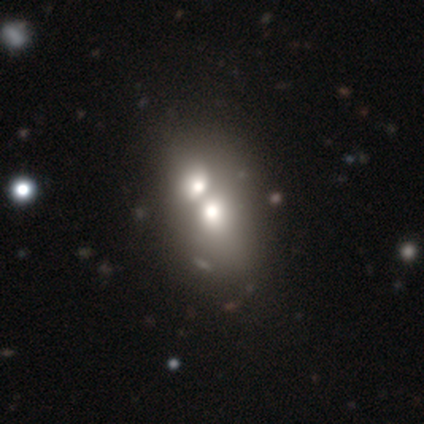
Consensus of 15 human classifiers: smooth-or-featured: smooth: 53% | featured or disk: 33% | star or artifact: 13%
  how-rounded: in between: 88% | round: 12% | cigar-shaped: 0%
  merging: merger: 100% | none: 0% | minor disturbance: 0% | major disturbance: 0%